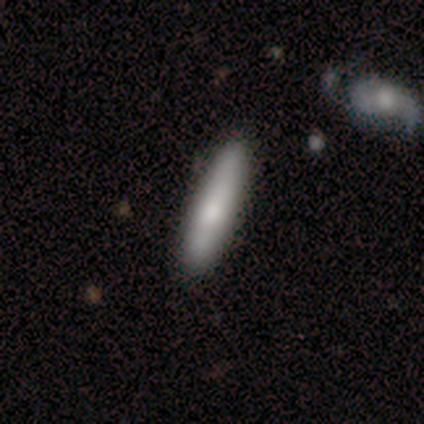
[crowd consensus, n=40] Smooth or featured? 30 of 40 (75%) said smooth. How rounded? 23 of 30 (77%) said cigar-shaped. Merging? 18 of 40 (45%) said none.